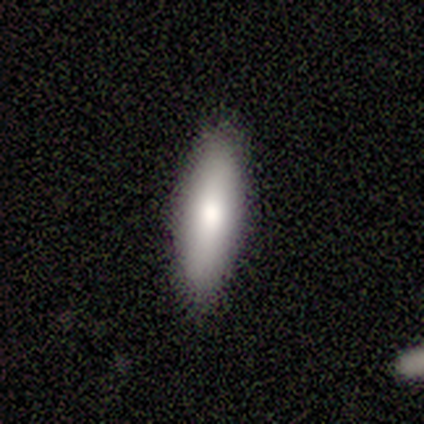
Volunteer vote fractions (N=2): This is clearly a smooth galaxy (100%). How rounded: clearly in between (100%). Merging: clearly none (100%).